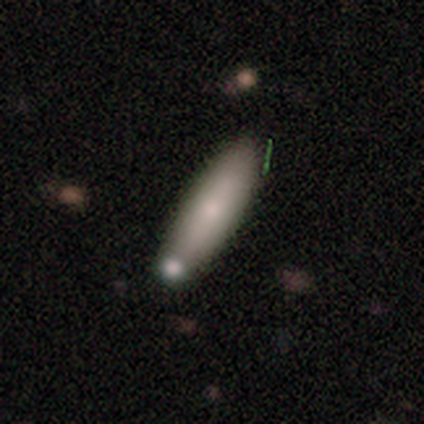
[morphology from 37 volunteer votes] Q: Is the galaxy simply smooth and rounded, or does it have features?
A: smooth — 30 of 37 (81%).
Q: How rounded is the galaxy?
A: cigar-shaped — 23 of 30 (77%).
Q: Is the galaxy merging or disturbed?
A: none — 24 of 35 (69%).